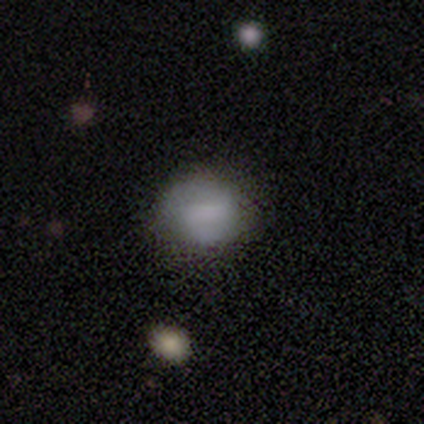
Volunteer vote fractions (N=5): Volunteers were most divided on "merging": none: 75%, minor disturbance: 25%, major disturbance: 0%, merger: 0%. More confident: how rounded — in between (100%); smooth or featured — smooth (80%).